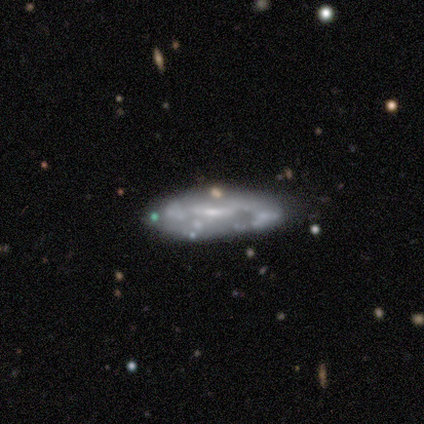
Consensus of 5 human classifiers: Morphology: type=smooth (60%); roundness=cigar-shaped (67%); merging=none (100%).